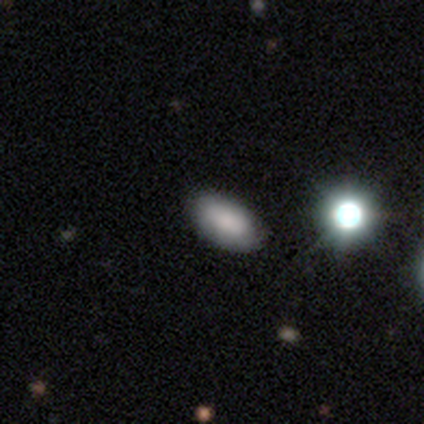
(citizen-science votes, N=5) Overall: smooth (80%). How rounded: in between (100%). Merging: none (75%).